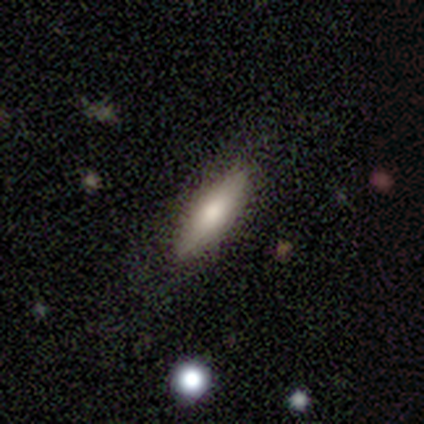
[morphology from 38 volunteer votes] Smooth or featured?
  - smooth: 63% *
  - featured or disk: 29%
  - star or artifact: 8%
How rounded?
  - cigar-shaped: 67% *
  - in between: 33%
  - round: 0%
Merging?
  - none: 83% *
  - minor disturbance: 14%
  - major disturbance: 3%
  - merger: 0%